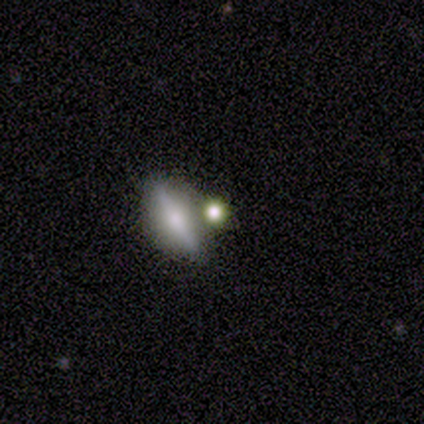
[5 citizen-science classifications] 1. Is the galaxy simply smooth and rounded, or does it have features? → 80% smooth, 20% featured or disk, 0% star or artifact.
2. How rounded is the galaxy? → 50% round, 25% in between, 25% cigar-shaped.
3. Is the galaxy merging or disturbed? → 80% none, 20% minor disturbance, 0% major disturbance, 0% merger.